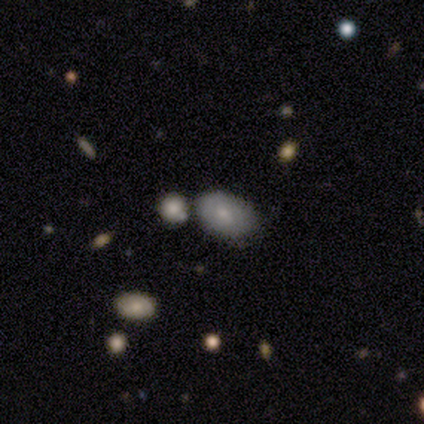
Q: Smooth or featured?
A: smooth (80%); runner-up: star or artifact (20%)
Q: How rounded?
A: in between (75%); runner-up: round (25%)
Q: Merging?
A: none (100%)